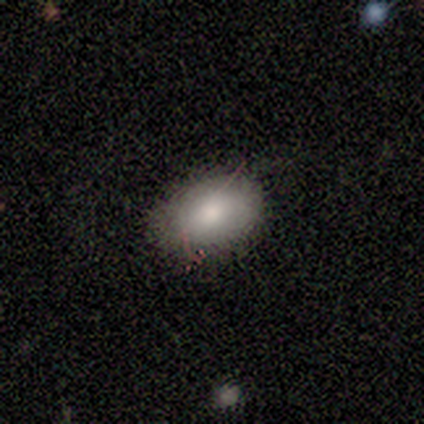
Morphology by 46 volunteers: smooth_or_featured: smooth (p=0.76) [alt: featured or disk p=0.20]
how_rounded: in between (p=0.89) [alt: round p=0.11]
merging: none (p=0.77) [alt: minor disturbance p=0.18]